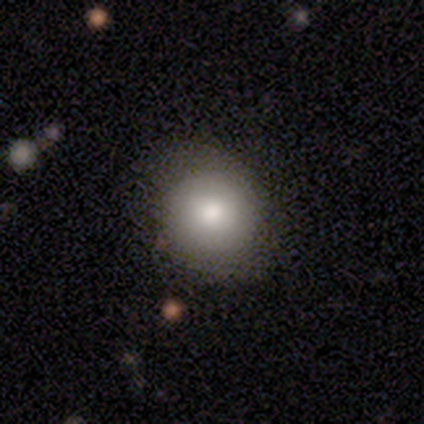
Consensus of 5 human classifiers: Morphology: type=smooth (80%); roundness=round (100%); merging=none (75%).